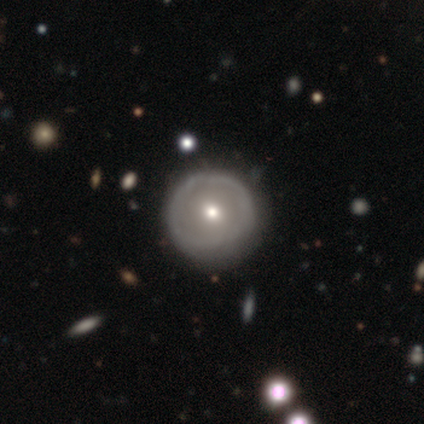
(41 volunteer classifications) A featured or disk galaxy (61%) with no bar (95%), no spiral arms (95%) and a moderate central bulge (59%).

Vote fractions:
- Smooth or featured? featured or disk: 61% / smooth: 32% / star or artifact: 7%
- Edge-on disk? no: 88% / yes: 12%
- Bar? no: 95% / weak: 5% / strong: 0%
- Spiral arms? no: 95% / yes: 5%
- Bulge size? moderate: 59% / small: 41% / dominant: 0% / large: 0% / none: 0%
- Merging? none: 68% / minor disturbance: 29% / merger: 3% / major disturbance: 0%